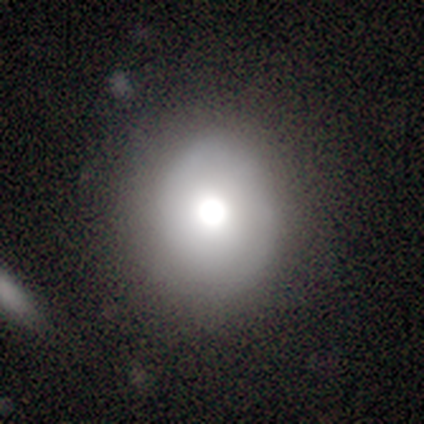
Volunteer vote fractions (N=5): This is likely a smooth galaxy (60%). How rounded: likely round (67%). Merging: clearly none (80%).